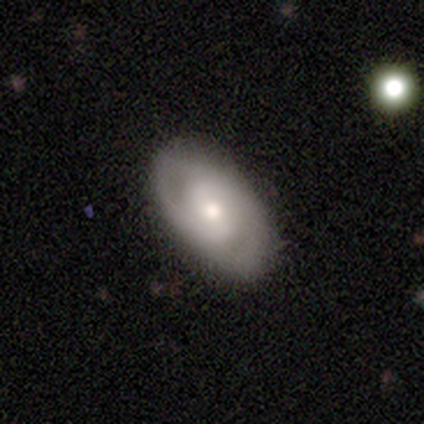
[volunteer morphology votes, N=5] Smooth or featured: smooth — 60% (featured or disk — 40%)
How rounded: round — 67% (in between — 33%)
Merging: none — 100%